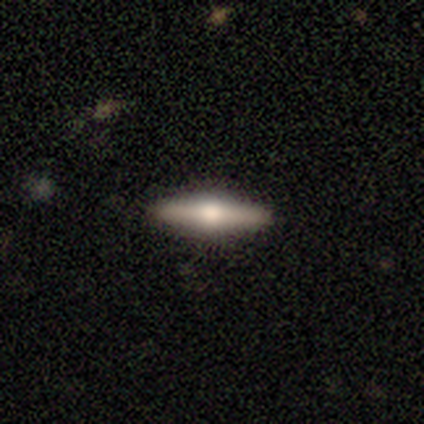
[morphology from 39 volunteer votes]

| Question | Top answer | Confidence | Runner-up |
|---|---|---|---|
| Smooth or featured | featured or disk | 64% | smooth (31%) |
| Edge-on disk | yes | 100% | — |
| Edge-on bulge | rounded | 96% | none (4%) |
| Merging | none | 89% | minor disturbance (8%) |